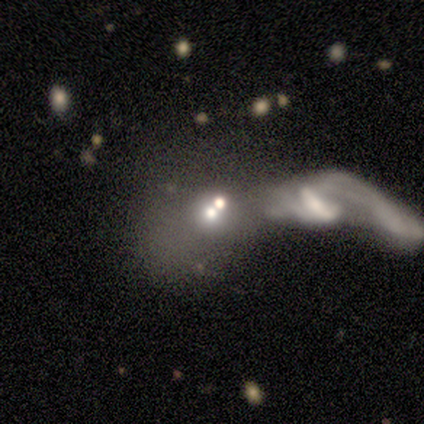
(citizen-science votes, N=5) Overall: featured or disk (40%, tied with star or artifact). Edge-on disk: no (100%). Bar: strong (50%, tied with no). Spiral arms: yes (50%, tied with no). Spiral arm count: 2 (100%). Spiral winding: loose (100%). Bulge size: dominant (50%, tied with none). Merging: merger (67%; major disturbance 33%).